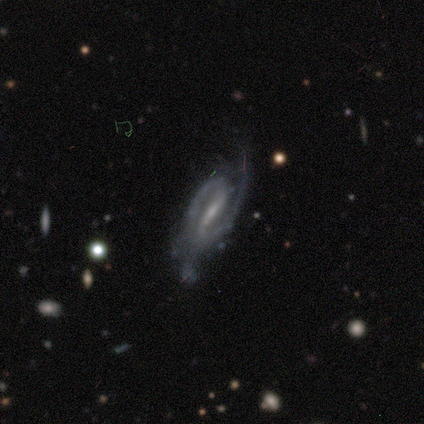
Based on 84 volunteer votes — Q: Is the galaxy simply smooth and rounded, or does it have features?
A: featured or disk — 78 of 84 (93%).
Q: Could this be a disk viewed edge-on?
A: no — 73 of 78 (94%).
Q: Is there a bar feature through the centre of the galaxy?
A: strong — 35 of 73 (48%, tied with weak).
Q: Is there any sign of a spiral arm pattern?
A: yes — 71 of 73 (97%).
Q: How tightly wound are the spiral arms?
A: medium — 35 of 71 (49%).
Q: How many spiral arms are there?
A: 2 — 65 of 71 (92%).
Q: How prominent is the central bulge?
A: small — 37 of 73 (51%).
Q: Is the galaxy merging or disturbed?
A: none — 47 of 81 (58%).